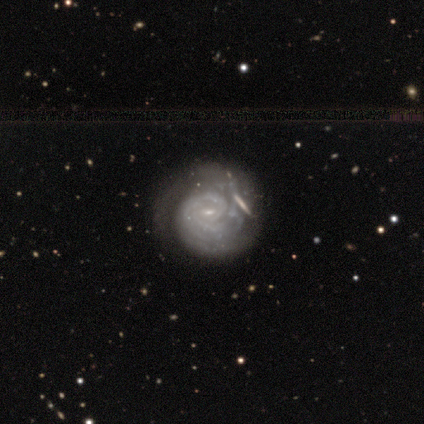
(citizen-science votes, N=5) Volunteers were most divided on "bar": weak: 60%, no: 40%, strong: 0%. More confident: smooth or featured — featured or disk (100%); edge-on disk — no (100%); spiral arms — yes (100%); bulge size — small (100%); spiral arm count — can't tell (60%); merging — minor disturbance (60%); spiral winding — tight (60%).